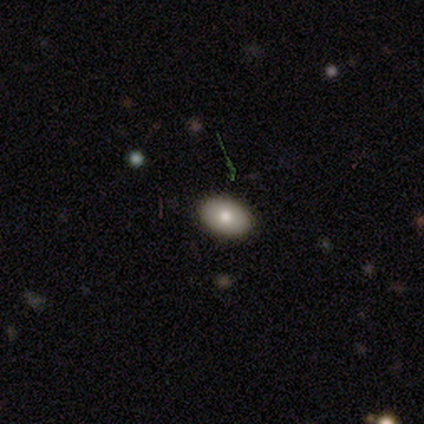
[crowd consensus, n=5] Smooth or featured? smooth (60%)
How rounded? in between (100%)
Merging? none (100%)